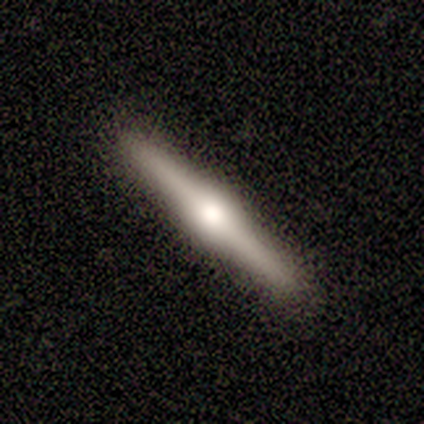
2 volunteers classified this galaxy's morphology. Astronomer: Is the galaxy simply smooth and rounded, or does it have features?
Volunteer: smooth — 100%.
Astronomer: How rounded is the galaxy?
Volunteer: cigar-shaped — 100%.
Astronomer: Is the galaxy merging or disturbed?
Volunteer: none — 100%.